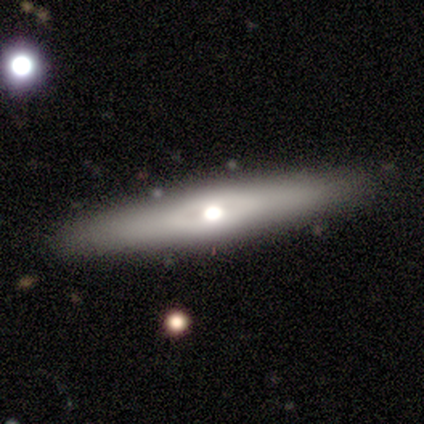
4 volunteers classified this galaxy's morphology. Smooth or featured: smooth — 50% (tied with featured or disk — 50%)
How rounded: cigar-shaped — 100%
Merging: minor disturbance — 75% (none — 25%)